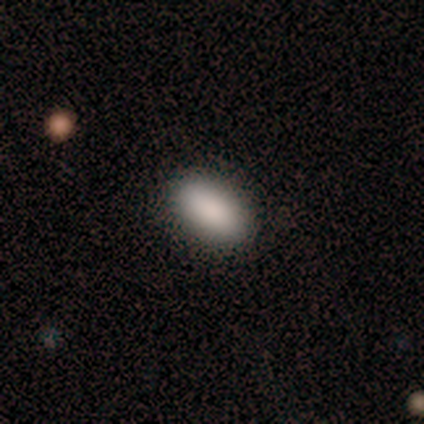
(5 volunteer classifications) Consensus on every question: smooth or featured — smooth (100%); how rounded — in between (100%); merging — none (100%).